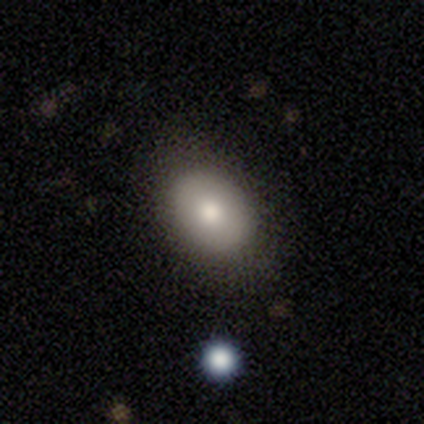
Morphology: type=smooth (82%); roundness=in between (79%); merging=none (84%).